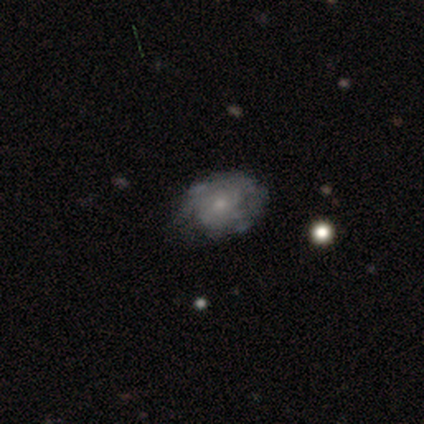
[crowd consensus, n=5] This appears to be a smooth galaxy with no disk features (40%, tied with featured or disk) that is in between round and cigar-shaped (100%). Merging: none (50%).